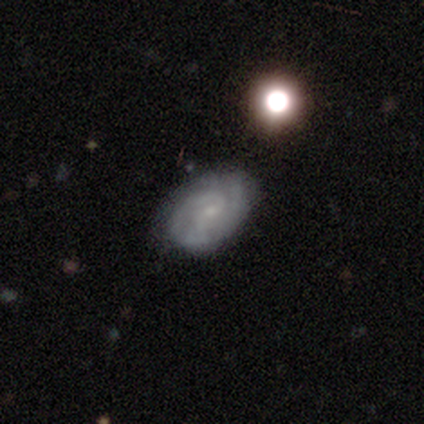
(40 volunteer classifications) Morphology: type=featured or disk (72%); edge-on=no (90%); bar=no (50%); spiral arms=yes (100%); winding=tight (58%); arm count=2 (38%); bulge=small (81%); merging=none (66%).